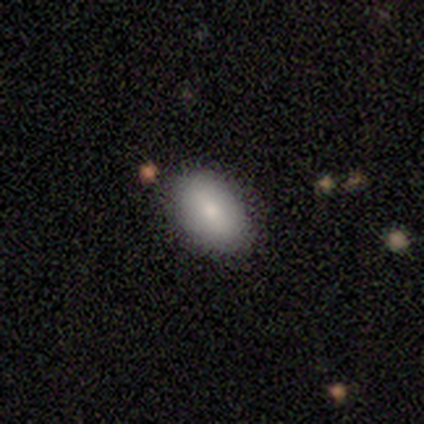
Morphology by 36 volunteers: Overall: smooth (86%). How rounded: in between (97%). Merging: none (91%).